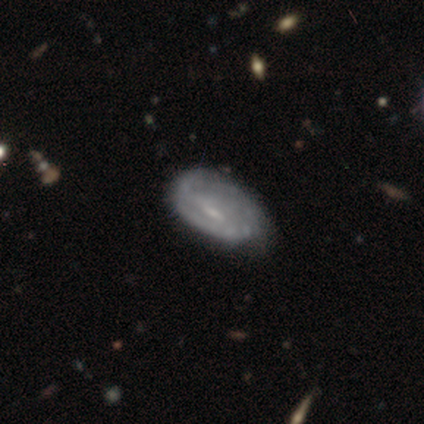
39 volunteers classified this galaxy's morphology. This is likely a featured or disk galaxy (67%). It is clearly not viewed edge-on (88%). Bar: marginally weak (43%). Spiral arm pattern: likely yes (61%). Spiral arm count: possibly can't tell (50%). Spiral winding: marginally loose (43%). Central bulge: marginally small (43%). Merging: possibly none (50%).